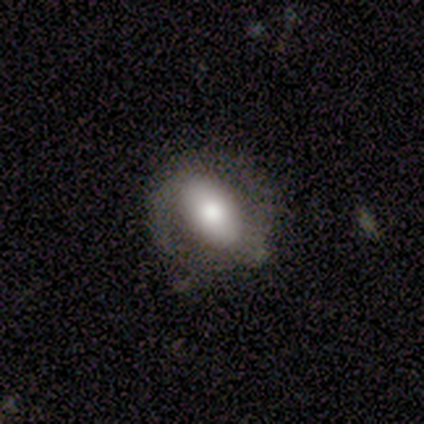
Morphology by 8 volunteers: Overall: smooth (62%; featured or disk 38%). How rounded: in between (80%). Merging: none (62%; minor disturbance 38%).